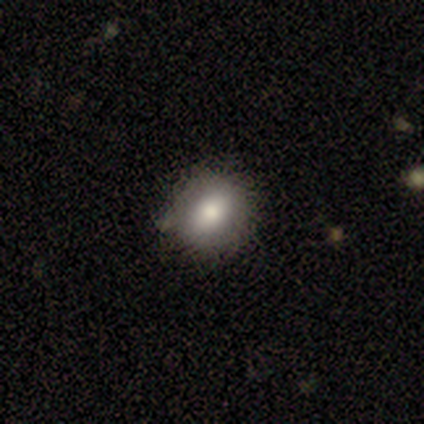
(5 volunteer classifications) smooth-or-featured: smooth: 100% | featured or disk: 0% | star or artifact: 0%
  how-rounded: round: 80% | in between: 20% | cigar-shaped: 0%
  merging: none: 80% | major disturbance: 20% | minor disturbance: 0% | merger: 0%